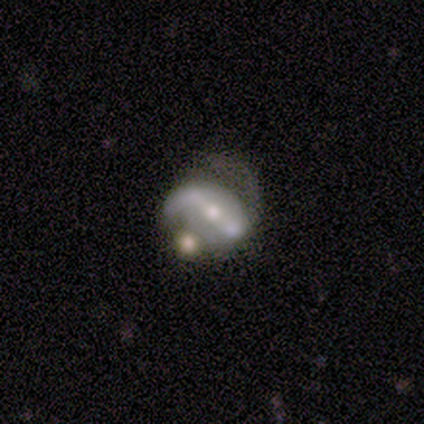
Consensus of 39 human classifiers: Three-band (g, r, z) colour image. It shows a featured or disk galaxy (79%) with a strong bar (73%), 2 (75%) loose (54%) spiral arms (80%) and a moderate central bulge (50%). Merging: major disturbance (45%).